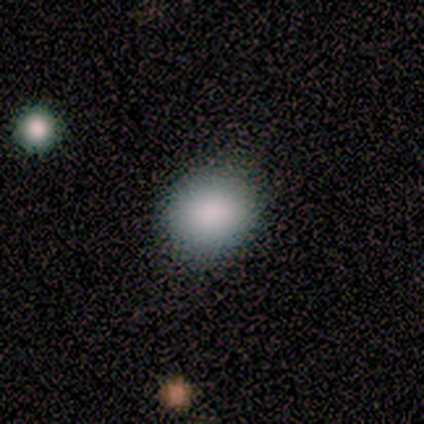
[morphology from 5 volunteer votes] Smooth or featured?
  - smooth: 60% *
  - featured or disk: 20%
  - star or artifact: 20%
How rounded?
  - round: 67% *
  - in between: 33%
  - cigar-shaped: 0%
Merging?
  - none: 50% * (tied)
  - minor disturbance: 50% * (tied)
  - major disturbance: 0%
  - merger: 0%